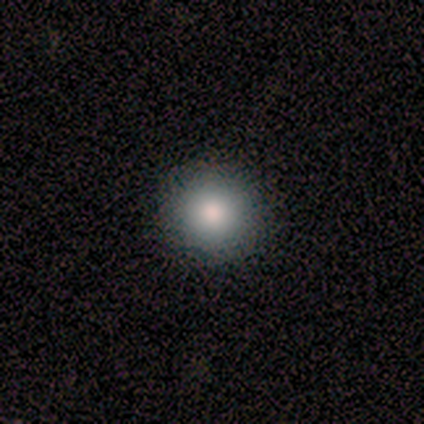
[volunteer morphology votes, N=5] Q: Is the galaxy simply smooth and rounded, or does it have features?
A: smooth — 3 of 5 (60%).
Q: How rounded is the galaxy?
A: round — 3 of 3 (100%).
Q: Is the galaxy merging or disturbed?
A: none — 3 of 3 (100%).